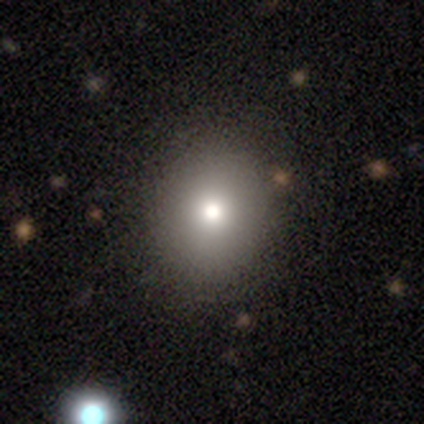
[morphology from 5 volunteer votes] type=smooth (100%); roundness=round (60%); merging=none (100%).